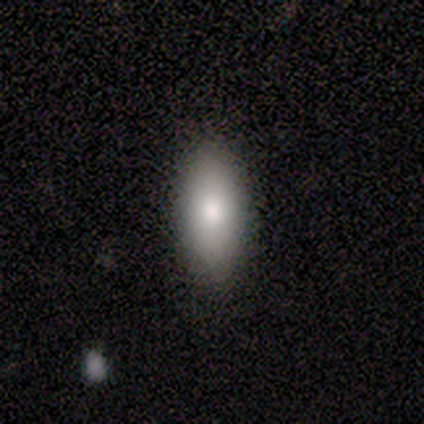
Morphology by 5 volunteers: This is likely a smooth galaxy (60%). How rounded: likely in between (67%). Merging: clearly none (100%).